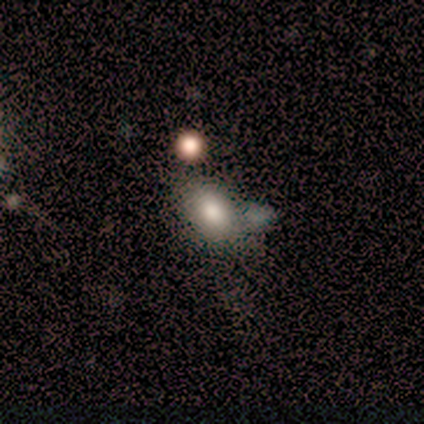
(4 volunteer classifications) This appears to be a smooth galaxy with no disk features (75%) that is in between round and cigar-shaped (100%). Merging: minor disturbance (50%).